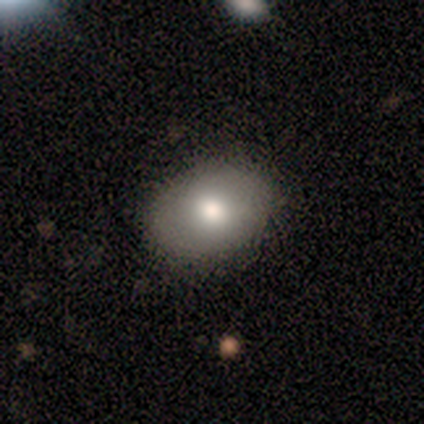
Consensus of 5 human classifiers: smooth_or_featured: smooth (p=0.80) [alt: featured or disk p=0.20]
how_rounded: in between (p=0.75) [alt: round p=0.25]
merging: none (p=0.80) [alt: minor disturbance p=0.20]